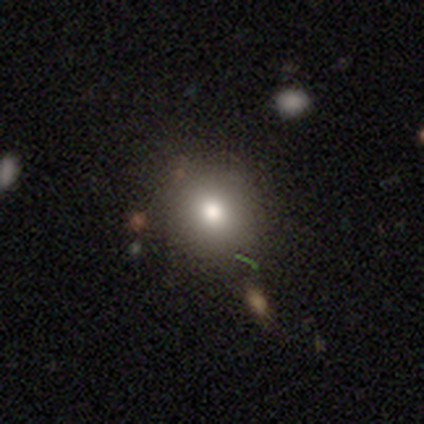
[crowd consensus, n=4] Q: Smooth or featured?
A: smooth (75%); runner-up: featured or disk (25%)
Q: How rounded?
A: round (100%)
Q: Merging?
A: none (100%)